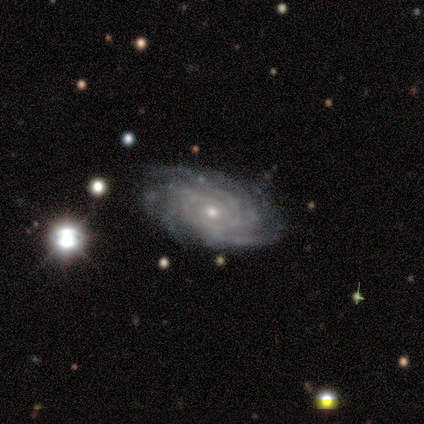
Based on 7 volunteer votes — Overall: featured or disk (100%). Edge-on disk: no (100%). Bar: no (100%). Spiral arms: yes (100%). Spiral arm count: more than 4 (57%; can't tell 29%). Spiral winding: tight (71%). Bulge size: small (86%). Merging: none (71%).